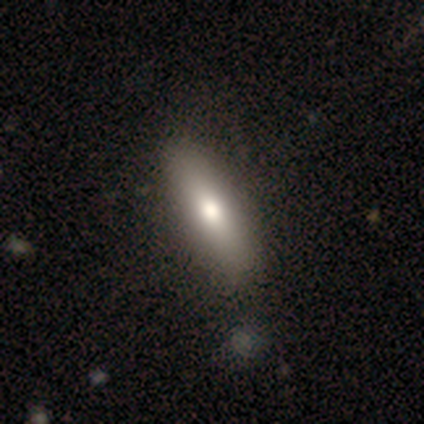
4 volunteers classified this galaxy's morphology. Smooth or featured? 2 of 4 (50%) said smooth. How rounded? 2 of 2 (100%) said in between. Merging? 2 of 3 (67%) said none.